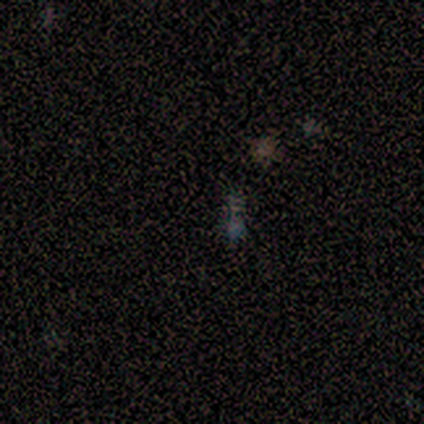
star or artifact 75%, smooth 12%, featured or disk 12%.